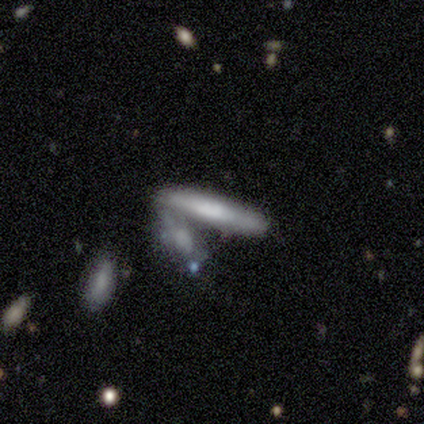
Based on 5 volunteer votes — This is clearly a smooth galaxy (100%). How rounded: clearly cigar-shaped (100%). Merging: clearly merger (80%).